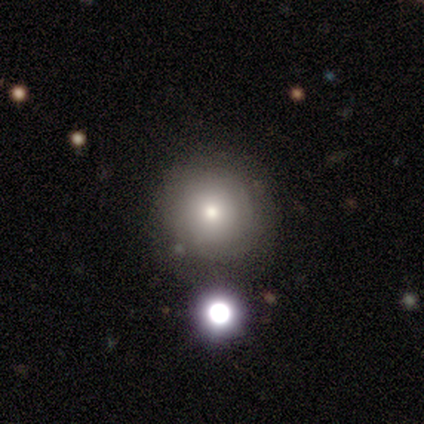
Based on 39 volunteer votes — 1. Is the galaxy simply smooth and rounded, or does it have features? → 82% smooth, 15% star or artifact, 3% featured or disk.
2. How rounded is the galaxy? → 94% round, 6% in between, 0% cigar-shaped.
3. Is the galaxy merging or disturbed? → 88% none, 9% minor disturbance, 3% merger, 0% major disturbance.